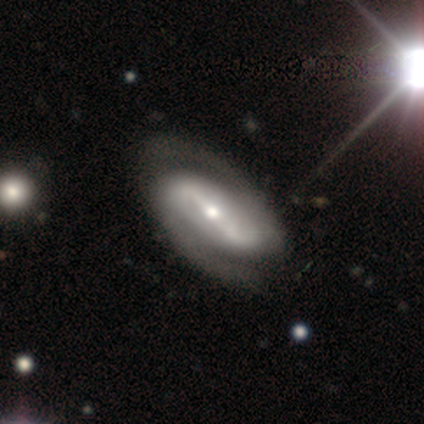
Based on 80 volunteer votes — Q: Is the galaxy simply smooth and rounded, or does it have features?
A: featured or disk — 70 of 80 (88%).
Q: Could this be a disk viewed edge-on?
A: no — 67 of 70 (96%).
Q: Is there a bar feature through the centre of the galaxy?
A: strong — 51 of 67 (76%).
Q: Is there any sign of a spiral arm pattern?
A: yes — 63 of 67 (94%).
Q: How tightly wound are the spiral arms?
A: medium — 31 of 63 (49%).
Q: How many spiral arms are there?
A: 2 — 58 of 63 (92%).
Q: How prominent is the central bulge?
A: moderate — 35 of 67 (52%).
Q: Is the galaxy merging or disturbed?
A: none — 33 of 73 (45%).